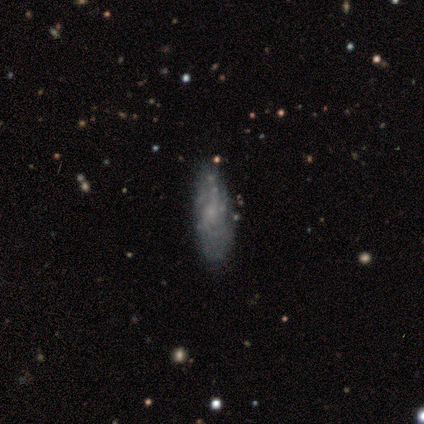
A featured or disk galaxy (60%) with no bar (67%), 1 (33%, tied with 3 and can't tell) tight (67%) spiral arms (100%) and no central bulge (67%).

Vote fractions:
- Smooth or featured? featured or disk: 60% / smooth: 40% / star or artifact: 0%
- Edge-on disk? no: 100% / yes: 0%
- Bar? no: 67% / weak: 33% / strong: 0%
- Spiral arms? yes: 100% / no: 0%
- Spiral winding? tight: 67% / medium: 33% / loose: 0%
- Spiral arm count? 1: 33% (tied) / 3: 33% (tied) / can't tell: 33% (tied) / 2: 0% / 4: 0% / more than 4: 0%
- Bulge size? none: 67% / small: 33% / dominant: 0% / large: 0% / moderate: 0%
- Merging? none: 60% / minor disturbance: 20% / major disturbance: 20% / merger: 0%